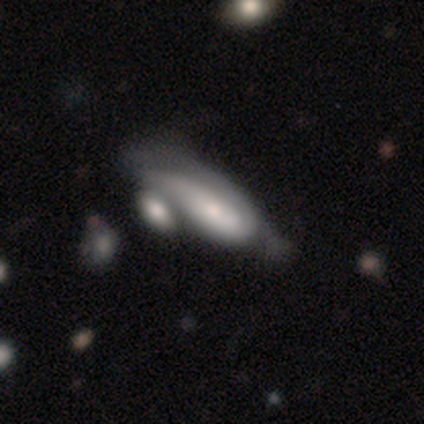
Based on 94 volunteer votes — Volunteers were most divided on "smooth or featured": smooth: 52%, featured or disk: 41%, star or artifact: 6%. Remaining: how rounded — in between (63%); merging — merger (48%).